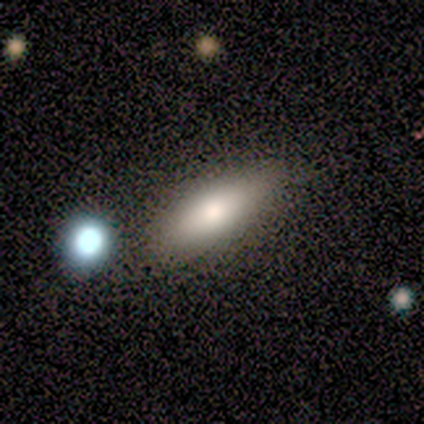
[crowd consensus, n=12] smooth 67%, featured or disk 33%, star or artifact 0%. Down the decision tree: how rounded — in between (75%); merging — none (92%).